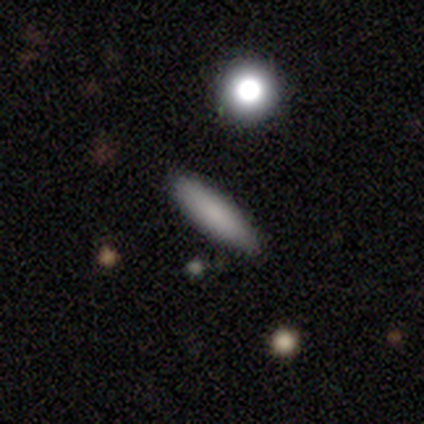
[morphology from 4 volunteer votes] type=smooth (100%); roundness=cigar-shaped (75%); merging=none (75%).